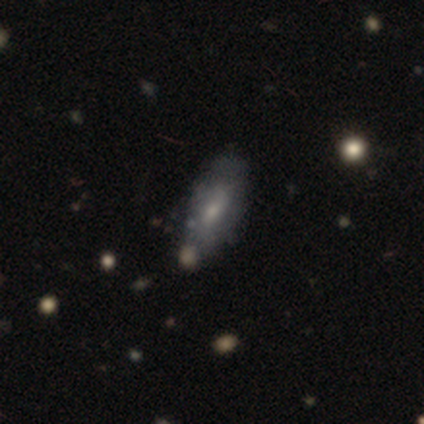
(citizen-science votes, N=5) Overall: smooth (60%; featured or disk 40%). How rounded: in between (100%). Merging: none (60%; minor disturbance 20%).